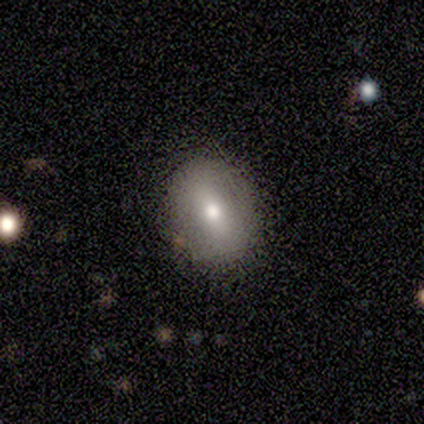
smooth 80%, featured or disk 20%, star or artifact 0%. Down the decision tree: how rounded — in between (75%); merging — none (80%).